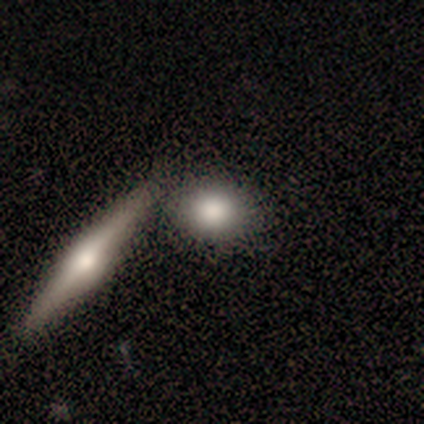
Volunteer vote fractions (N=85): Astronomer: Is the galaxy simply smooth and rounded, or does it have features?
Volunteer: smooth — 67%.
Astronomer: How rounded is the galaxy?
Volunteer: round — 65%.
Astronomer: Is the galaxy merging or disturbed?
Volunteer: none — 57% (runner-up: merger, 32%).